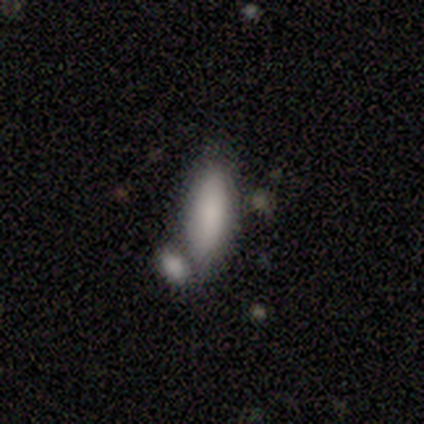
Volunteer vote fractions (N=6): Smooth or featured: smooth — 100%
How rounded: in between — 67% (cigar-shaped — 33%)
Merging: none — 50% (minor disturbance — 33%)